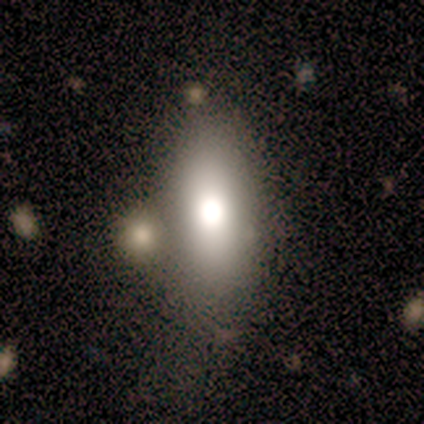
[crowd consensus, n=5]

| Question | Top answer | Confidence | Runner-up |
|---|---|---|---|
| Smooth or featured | smooth | 80% | featured or disk (20%) |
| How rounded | in between | 100% | — |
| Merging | none | 60% | major disturbance (40%) |